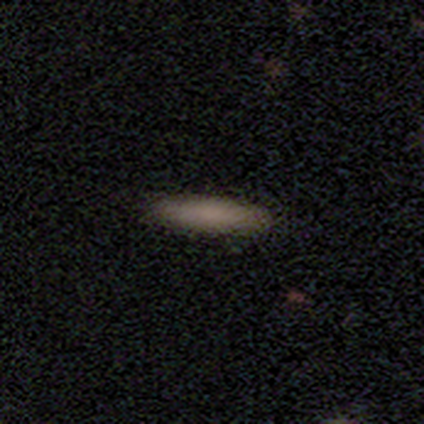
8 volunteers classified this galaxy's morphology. Overall: smooth (88%). How rounded: cigar-shaped (100%). Merging: none (100%).